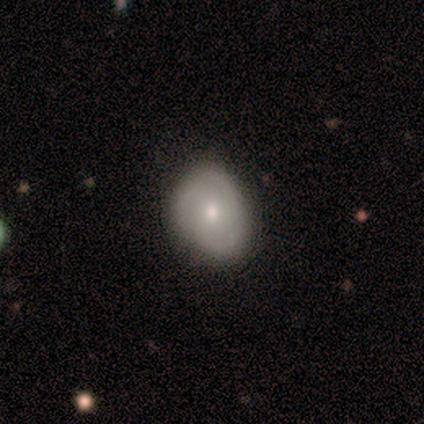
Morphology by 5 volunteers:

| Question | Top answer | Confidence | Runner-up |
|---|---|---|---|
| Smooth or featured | smooth | 60% | featured or disk (40%) |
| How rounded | round | 67% | in between (33%) |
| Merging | none | 60% | minor disturbance (40%) |